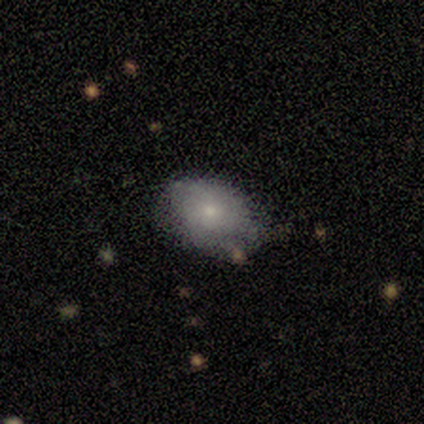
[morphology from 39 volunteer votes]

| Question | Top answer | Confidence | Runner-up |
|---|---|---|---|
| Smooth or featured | smooth | 79% | featured or disk (15%) |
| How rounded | in between | 84% | round (16%) |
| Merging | none | 62% | minor disturbance (30%) |